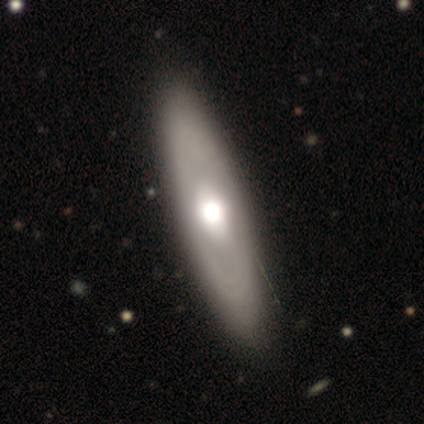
A smooth galaxy with no disk features (60%) that is cigar-shaped (67%).

Vote fractions:
- Smooth or featured? smooth: 60% / featured or disk: 40% / star or artifact: 0%
- How rounded? cigar-shaped: 67% / in between: 33% / round: 0%
- Merging? none: 100% / minor disturbance: 0% / major disturbance: 0% / merger: 0%